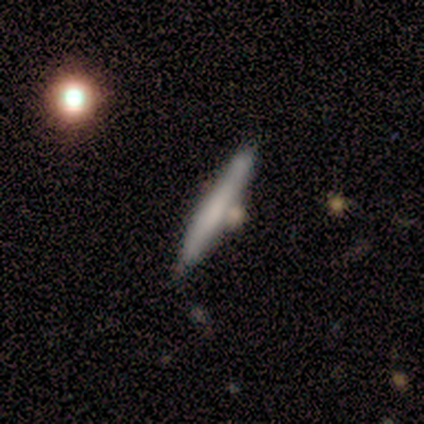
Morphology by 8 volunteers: type=featured or disk (62%); edge-on=yes (100%); edge-on bulge=none (60%); merging=none (50%).